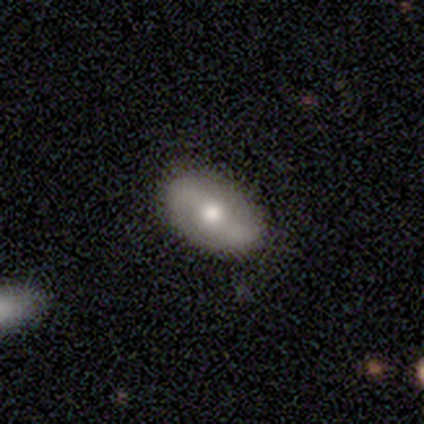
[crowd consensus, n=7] smooth_or_featured: smooth (p=0.43) [tied with: featured or disk p=0.43]
how_rounded: in between (p=1.00)
merging: none (p=1.00)